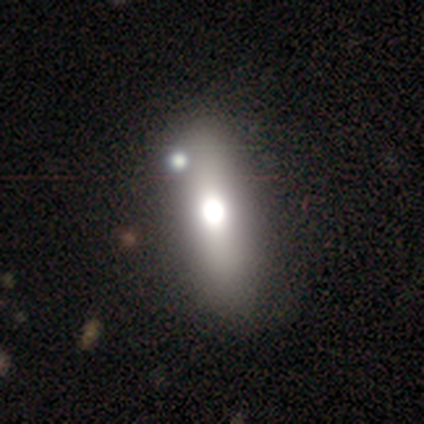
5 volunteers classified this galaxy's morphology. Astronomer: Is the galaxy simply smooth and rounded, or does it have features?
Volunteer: smooth — 60%.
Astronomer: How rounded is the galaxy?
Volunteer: in between — 100%.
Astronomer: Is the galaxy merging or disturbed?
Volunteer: none — 75%.